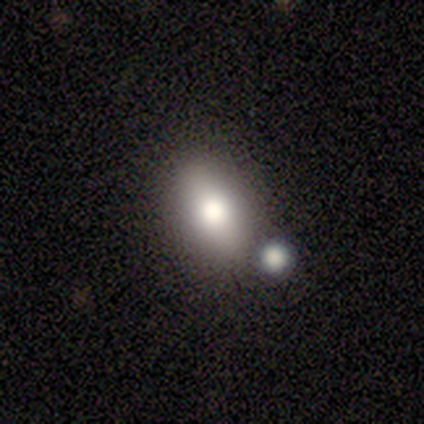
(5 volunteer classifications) Morphology: type=smooth (80%); roundness=in between (100%); merging=none (40%, tied with merger).